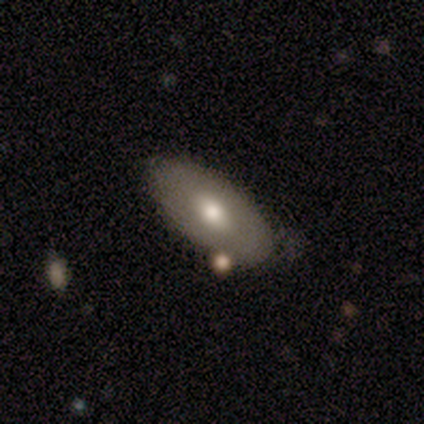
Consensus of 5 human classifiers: Smooth or featured? smooth (60%)
How rounded? in between (67%)
Merging? none (80%)